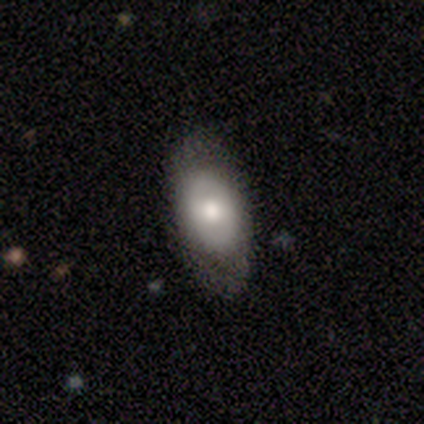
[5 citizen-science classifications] featured or disk 60%, smooth 40%, star or artifact 0%. Down the decision tree: edge-on disk — no (67%); bar — no (100%); spiral arms — yes (50%, tied with no); spiral arm count — 2 (100%); spiral winding — tight (100%); bulge size — moderate (50%, tied with small); merging — none (80%).